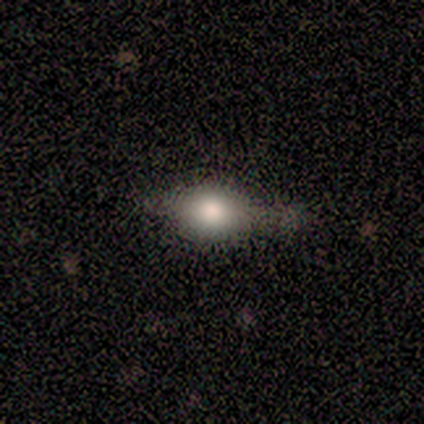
Smooth or featured? 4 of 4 (100%) said smooth. How rounded? 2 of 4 (50%, tied with cigar-shaped) said round. Merging? 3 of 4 (75%) said none.